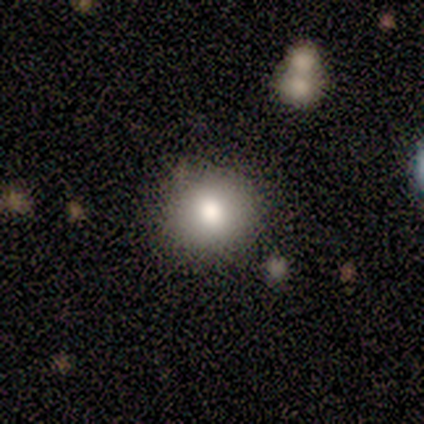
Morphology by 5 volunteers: Q: Smooth or featured?
A: smooth (80%); runner-up: star or artifact (20%)
Q: How rounded?
A: round (100%)
Q: Merging?
A: none (100%)